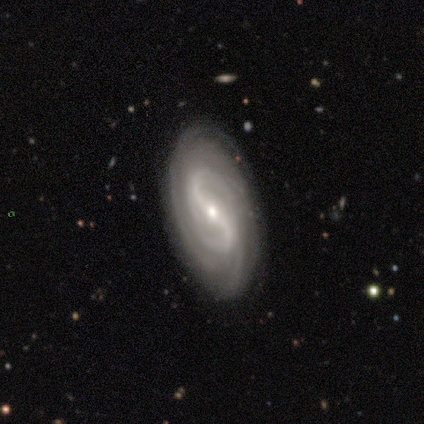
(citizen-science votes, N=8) Morphology: type=featured or disk (100%); edge-on=no (100%); bar=strong (50%, tied with weak); spiral arms=yes (100%); winding=tight (38%, tied with medium); arm count=2 (38%); bulge=small (62%); merging=none (88%).